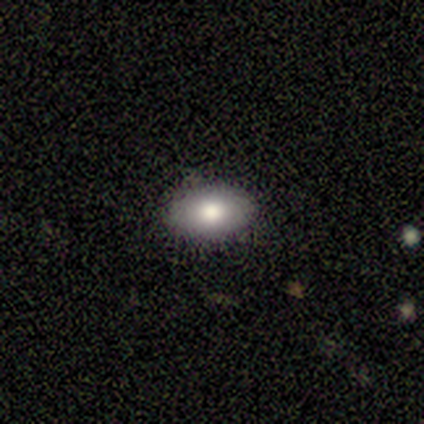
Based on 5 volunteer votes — Smooth or featured?
  - smooth: 60% *
  - featured or disk: 40%
  - star or artifact: 0%
How rounded?
  - in between: 100% *
  - round: 0%
  - cigar-shaped: 0%
Merging?
  - none: 100% *
  - minor disturbance: 0%
  - major disturbance: 0%
  - merger: 0%